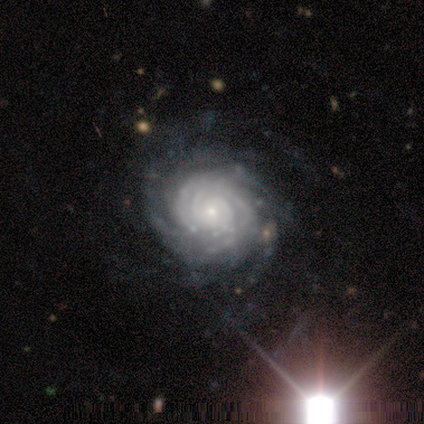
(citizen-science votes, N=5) A featured or disk galaxy (100%) with no bar (80%), more than 4 (80%) tight (80%) spiral arms (100%) and a moderate central bulge (40%, tied with small).

Vote fractions:
- Smooth or featured? featured or disk: 100% / smooth: 0% / star or artifact: 0%
- Edge-on disk? no: 100% / yes: 0%
- Bar? no: 80% / strong: 20% / weak: 0%
- Spiral arms? yes: 100% / no: 0%
- Spiral winding? tight: 80% / medium: 20% / loose: 0%
- Spiral arm count? more than 4: 80% / can't tell: 20% / 1: 0% / 2: 0% / 3: 0% / 4: 0%
- Bulge size? moderate: 40% (tied) / small: 40% (tied) / large: 20% / dominant: 0% / none: 0%
- Merging? none: 80% / minor disturbance: 20% / major disturbance: 0% / merger: 0%